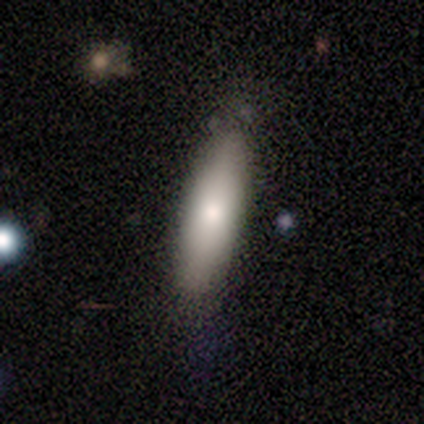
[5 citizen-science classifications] smooth-or-featured: smooth: 100% | featured or disk: 0% | star or artifact: 0%
  how-rounded: cigar-shaped: 80% | in between: 20% | round: 0%
  merging: none: 80% | minor disturbance: 20% | major disturbance: 0% | merger: 0%